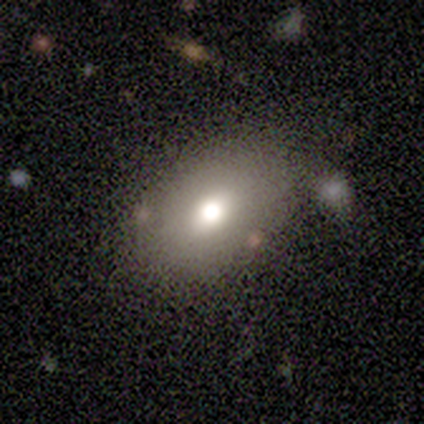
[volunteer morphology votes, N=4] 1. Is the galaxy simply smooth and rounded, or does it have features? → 75% smooth, 25% featured or disk, 0% star or artifact.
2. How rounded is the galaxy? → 67% in between, 33% round, 0% cigar-shaped.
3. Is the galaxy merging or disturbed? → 100% none, 0% minor disturbance, 0% major disturbance, 0% merger.